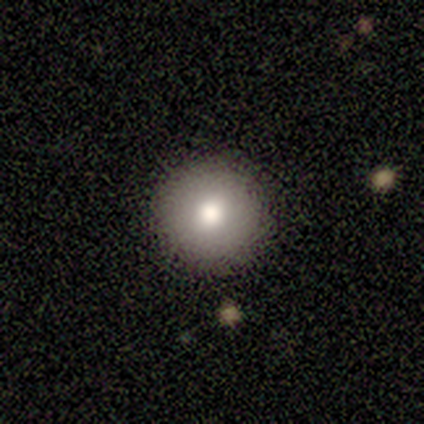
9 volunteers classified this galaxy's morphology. This appears to be a smooth galaxy with no disk features (56%) that is round (100%). Merging: none (100%).